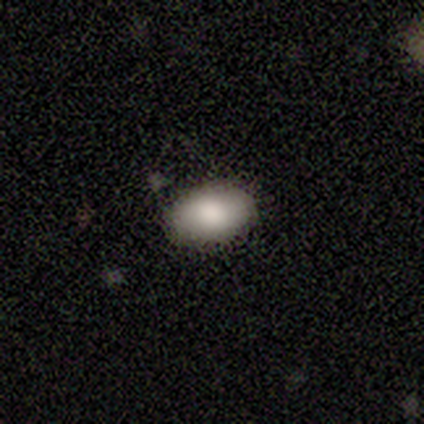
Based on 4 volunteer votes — This is likely a smooth galaxy (75%). How rounded: likely in between (67%). Merging: clearly none (100%).